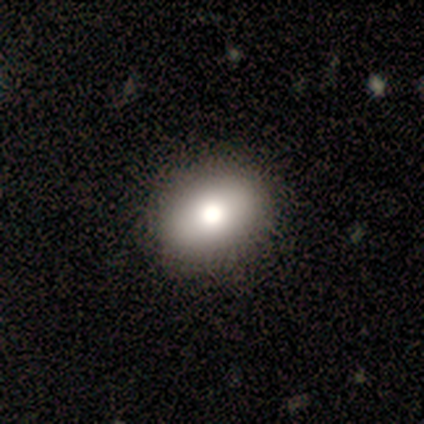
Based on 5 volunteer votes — smooth-or-featured: smooth: 100% | featured or disk: 0% | star or artifact: 0%
  how-rounded: in between: 80% | round: 20% | cigar-shaped: 0%
  merging: none: 100% | minor disturbance: 0% | major disturbance: 0% | merger: 0%